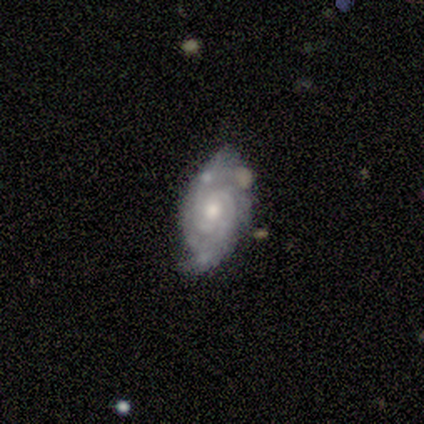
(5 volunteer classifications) Smooth or featured: featured or disk — 100%
Edge-on disk: no — 100%
Bar: no — 80% (weak — 20%)
Spiral arms: yes — 100%
Spiral winding: tight — 80% (loose — 20%)
Spiral arm count: can't tell — 40% (2 — 20%)
Bulge size: small — 60% (moderate — 40%)
Merging: none — 80% (minor disturbance — 20%)